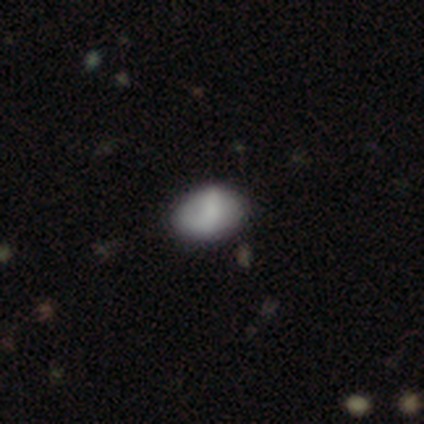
smooth-or-featured: smooth: 45% | featured or disk: 29% | star or artifact: 26%
  how-rounded: in between: 88% | round: 12% | cigar-shaped: 0%
  merging: none: 68% | minor disturbance: 29% | major disturbance: 4% | merger: 0%